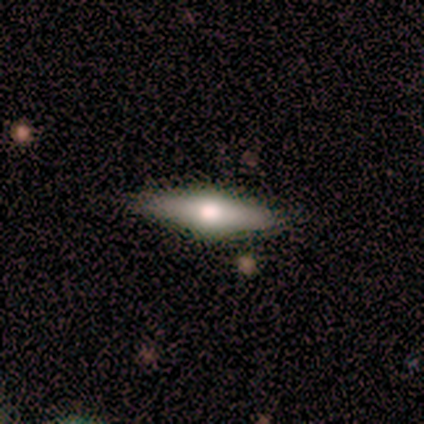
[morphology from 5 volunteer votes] Overall: featured or disk (100%). Edge-on disk: yes (80%). Edge-on bulge: rounded (100%). Merging: none (100%).